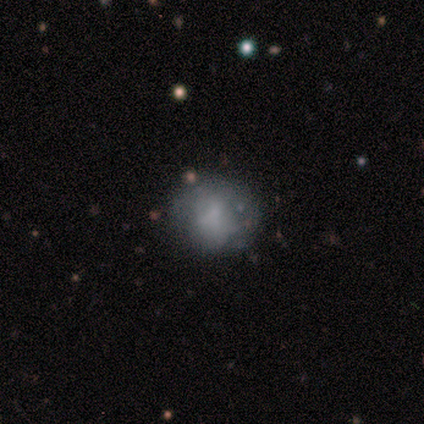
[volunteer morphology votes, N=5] smooth-or-featured: smooth: 40% (tied) | star or artifact: 40% (tied) | featured or disk: 20%
  how-rounded: round: 50% (tied) | in between: 50% (tied) | cigar-shaped: 0%
  merging: none: 67% | minor disturbance: 33% | major disturbance: 0% | merger: 0%